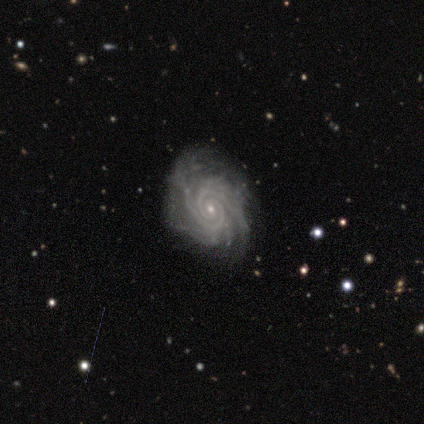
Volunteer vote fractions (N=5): Volunteers were most divided on "spiral arm count" (2-way tie): 2: 40%, can't tell: 40%, more than 4: 20%, 1: 0%, 3: 0%, 4: 0%. More confident: smooth or featured — featured or disk (100%); edge-on disk — no (100%); spiral arms — yes (100%); spiral winding — tight (100%); bar — no (80%); bulge size — small (80%); merging — none (80%).